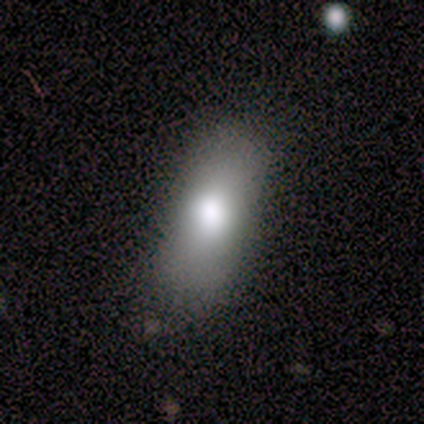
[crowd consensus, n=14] Smooth or featured? 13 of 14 (93%) said smooth. How rounded? 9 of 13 (69%) said in between. Merging? 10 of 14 (71%) said none.